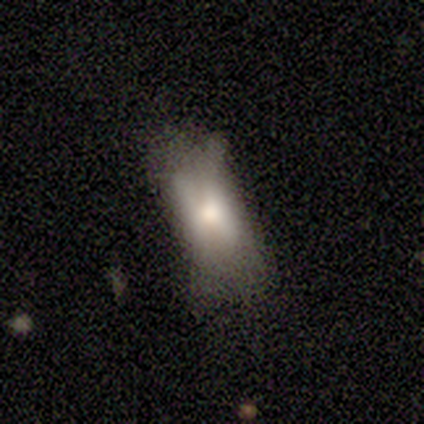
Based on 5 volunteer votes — Smooth or featured? featured or disk (60%)
Edge-on disk? no (100%)
Bar? no (100%)
Spiral arms? no (100%)
Bulge size? large (33%, tied with moderate and none)
Merging? minor disturbance (60%)